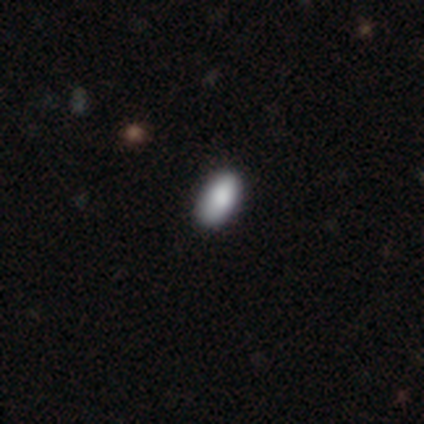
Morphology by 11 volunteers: Smooth or featured: smooth — 91% (star or artifact — 9%)
How rounded: in between — 100%
Merging: none — 90% (minor disturbance — 10%)